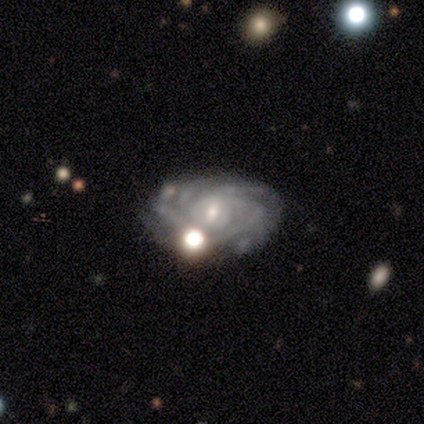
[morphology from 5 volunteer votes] Q: Smooth or featured?
A: featured or disk (100%)
Q: Edge-on disk?
A: no (100%)
Q: Bar?
A: weak (40%); tied with: no (40%)
Q: Spiral arms?
A: yes (100%)
Q: Spiral winding?
A: tight (40%); tied with: medium (40%)
Q: Spiral arm count?
A: more than 4 (40%); tied with: can't tell (40%)
Q: Bulge size?
A: small (60%); runner-up: moderate (40%)
Q: Merging?
A: merger (40%); runner-up: none (20%)